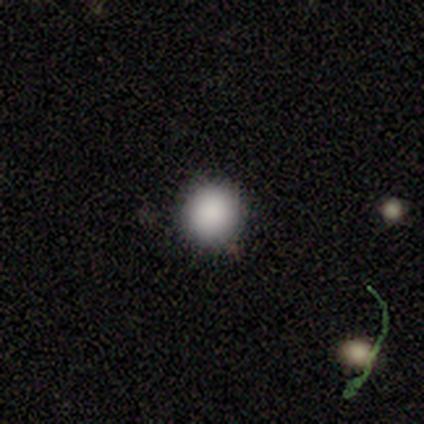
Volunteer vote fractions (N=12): Overall: smooth (92%). How rounded: round (100%). Merging: none (91%).